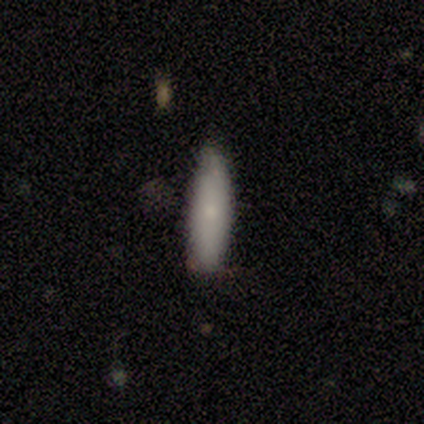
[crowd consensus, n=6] A smooth galaxy with no disk features (100%) that is cigar-shaped (67%).

Vote fractions:
- Smooth or featured? smooth: 100% / featured or disk: 0% / star or artifact: 0%
- How rounded? cigar-shaped: 67% / in between: 33% / round: 0%
- Merging? none: 100% / minor disturbance: 0% / major disturbance: 0% / merger: 0%